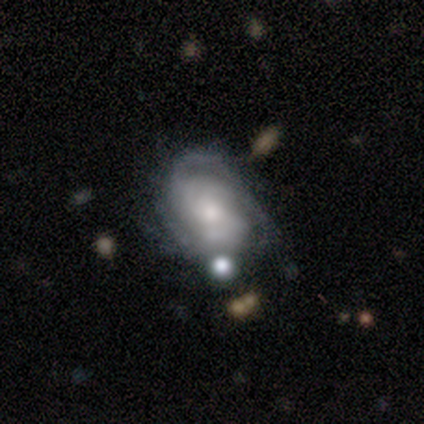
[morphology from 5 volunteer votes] A featured or disk galaxy (100%) with no bar (60%), 3 (50%, tied with can't tell) medium (75%) spiral arms (80%) and a moderate central bulge (100%).

Vote fractions:
- Smooth or featured? featured or disk: 100% / smooth: 0% / star or artifact: 0%
- Edge-on disk? no: 100% / yes: 0%
- Bar? no: 60% / weak: 40% / strong: 0%
- Spiral arms? yes: 80% / no: 20%
- Spiral winding? medium: 75% / tight: 25% / loose: 0%
- Spiral arm count? 3: 50% (tied) / can't tell: 50% (tied) / 1: 0% / 2: 0% / 4: 0% / more than 4: 0%
- Bulge size? moderate: 100% / dominant: 0% / large: 0% / small: 0% / none: 0%
- Merging? none: 100% / minor disturbance: 0% / major disturbance: 0% / merger: 0%